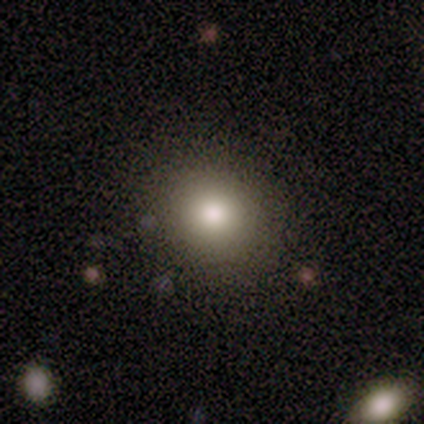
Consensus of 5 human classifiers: smooth_or_featured: smooth (p=1.00)
how_rounded: round (p=1.00)
merging: none (p=1.00)